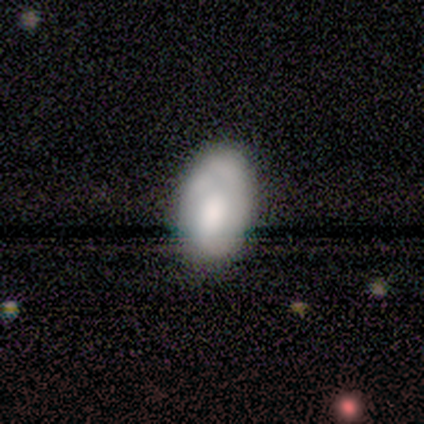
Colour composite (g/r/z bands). It shows a smooth galaxy with no disk features (52%) that is in between round and cigar-shaped (100%). Merging: none (43%).